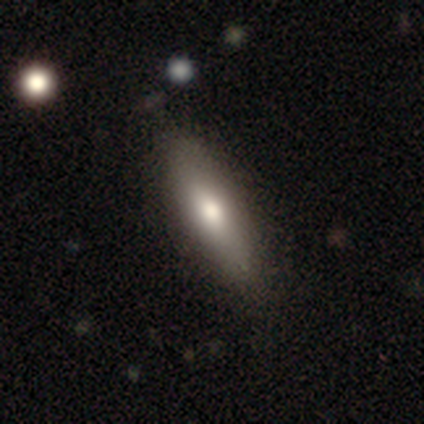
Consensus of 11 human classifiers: Smooth or featured? 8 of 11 (73%) said smooth. How rounded? 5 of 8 (62%) said in between. Merging? 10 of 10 (100%) said none.